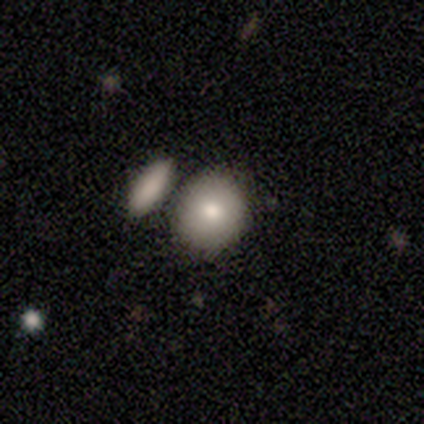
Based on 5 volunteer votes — This is clearly a smooth galaxy (80%). How rounded: likely round (75%). Merging: clearly none (80%).